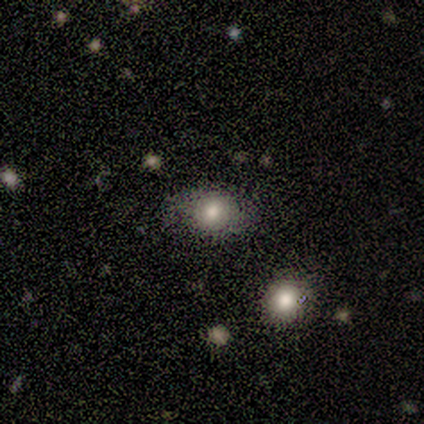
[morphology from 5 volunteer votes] Smooth or featured? smooth (60%)
How rounded? round (67%)
Merging? none (50%)